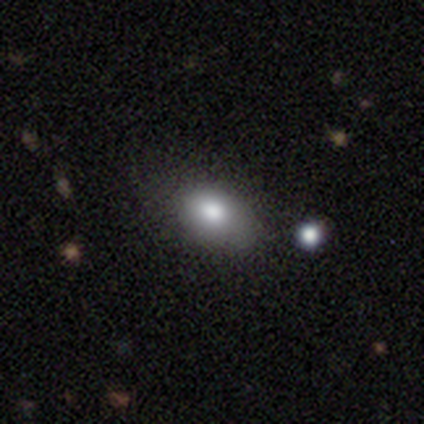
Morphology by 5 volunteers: Overall: smooth (80%). How rounded: in between (100%). Merging: none (50%; major disturbance 25%).